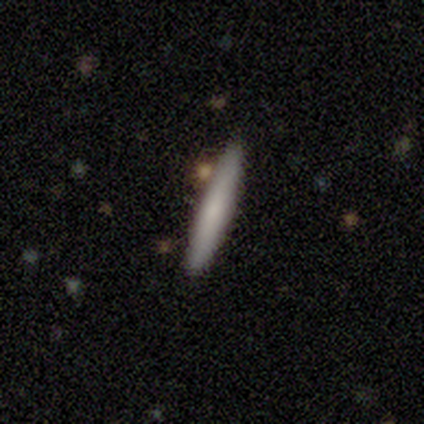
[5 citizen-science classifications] smooth 80%, featured or disk 20%, star or artifact 0%. Down the decision tree: how rounded — cigar-shaped (100%); merging — none (100%).